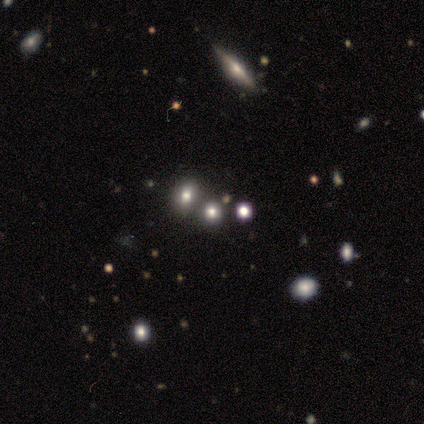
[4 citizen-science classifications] A smooth galaxy with no disk features (50%, tied with star or artifact) that is round (50%, tied with in between).

Vote fractions:
- Smooth or featured? smooth: 50% (tied) / star or artifact: 50% (tied) / featured or disk: 0%
- How rounded? round: 50% (tied) / in between: 50% (tied) / cigar-shaped: 0%
- Merging? none: 100% / minor disturbance: 0% / major disturbance: 0% / merger: 0%